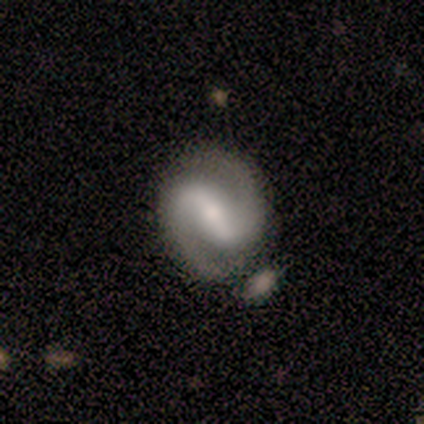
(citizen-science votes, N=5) Smooth or featured: featured or disk — 60% (smooth — 40%)
Edge-on disk: no — 100%
Bar: strong — 67% (weak — 33%)
Spiral arms: yes — 100%
Spiral winding: medium — 67% (tight — 33%)
Spiral arm count: 2 — 100%
Bulge size: small — 100%
Merging: none — 60% (minor disturbance — 40%)